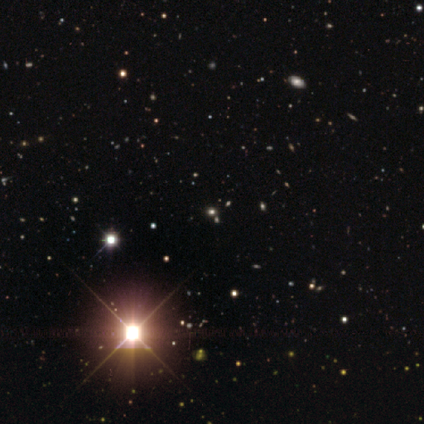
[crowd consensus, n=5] Morphology: type=star or artifact (80%).